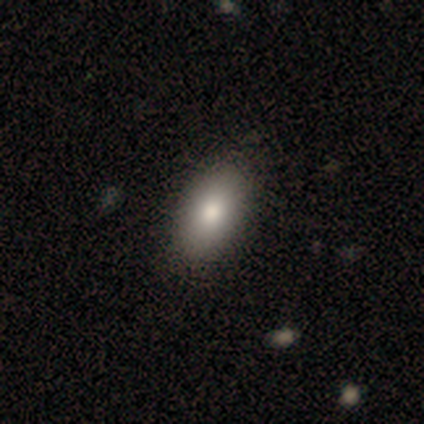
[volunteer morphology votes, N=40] Smooth or featured?
  - smooth: 88% *
  - featured or disk: 8%
  - star or artifact: 5%
How rounded?
  - in between: 86% *
  - round: 9%
  - cigar-shaped: 6%
Merging?
  - none: 55% *
  - minor disturbance: 5%
  - merger: 3%
  - major disturbance: 0%